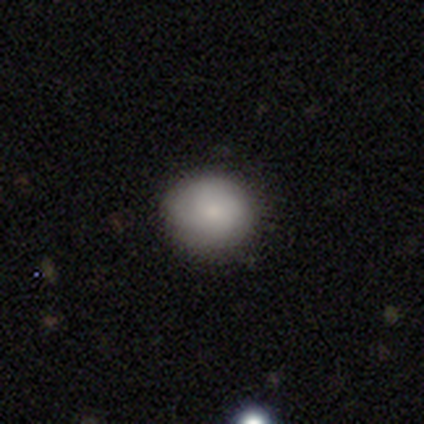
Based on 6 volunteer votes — Overall: smooth (67%; featured or disk 33%). How rounded: round (75%). Merging: none (83%).